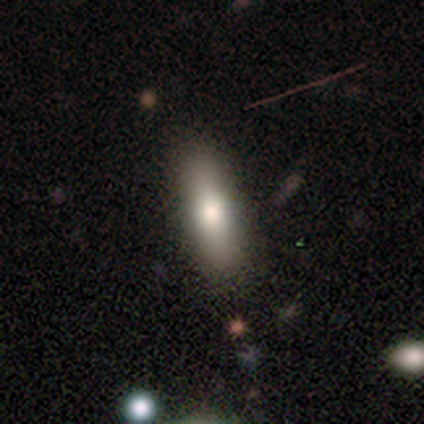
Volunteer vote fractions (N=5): smooth_or_featured: smooth (p=1.00)
how_rounded: cigar-shaped (p=0.60) [alt: in between p=0.40]
merging: none (p=1.00)